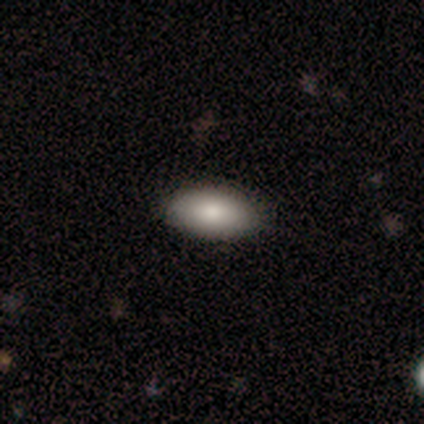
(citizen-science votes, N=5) smooth-or-featured: smooth: 80% | featured or disk: 20% | star or artifact: 0%
  how-rounded: in between: 100% | round: 0% | cigar-shaped: 0%
  merging: none: 100% | minor disturbance: 0% | major disturbance: 0% | merger: 0%